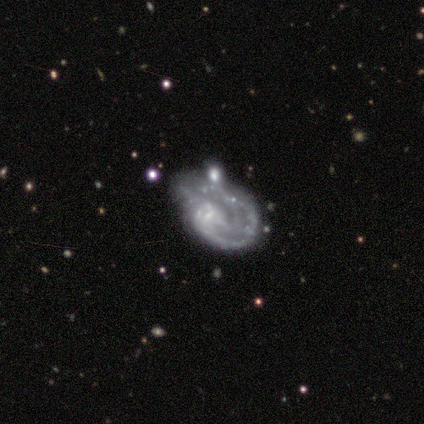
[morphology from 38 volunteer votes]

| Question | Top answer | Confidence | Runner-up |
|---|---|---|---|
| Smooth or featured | featured or disk | 89% | star or artifact (8%) |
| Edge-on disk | no | 100% | — |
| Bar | no | 74% | weak (18%) |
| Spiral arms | yes | 85% | no (15%) |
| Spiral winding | tight | 52% | medium (24%) |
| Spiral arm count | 1 | 41% | 2 (24%) |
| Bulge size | none | 47% | small (38%) |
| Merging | none | 34% | minor disturbance (23%) |